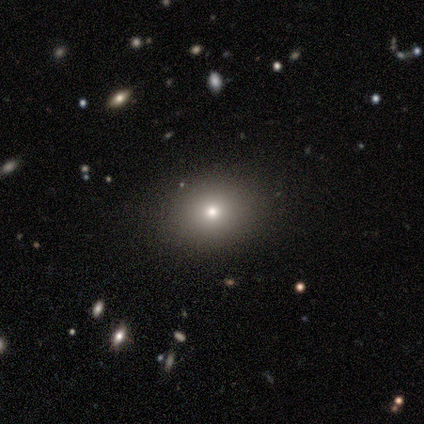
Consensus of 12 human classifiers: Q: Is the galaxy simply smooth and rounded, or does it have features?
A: smooth — 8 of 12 (67%).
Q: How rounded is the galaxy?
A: in between — 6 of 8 (75%).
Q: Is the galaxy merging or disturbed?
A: none — 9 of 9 (100%).